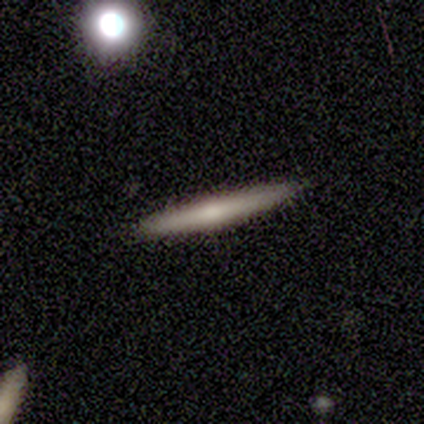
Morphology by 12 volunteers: Q: Smooth or featured?
A: smooth (42%); tied with: featured or disk (42%)
Q: How rounded?
A: cigar-shaped (80%); runner-up: in between (20%)
Q: Merging?
A: none (90%); runner-up: minor disturbance (10%)